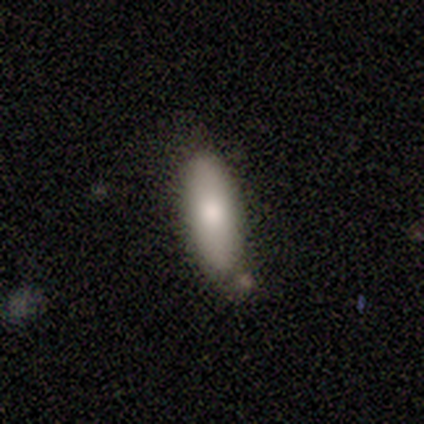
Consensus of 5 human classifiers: Smooth or featured? 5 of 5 (100%) said smooth. How rounded? 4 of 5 (80%) said in between. Merging? 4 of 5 (80%) said none.